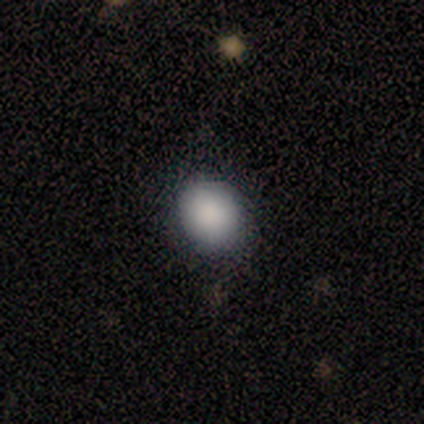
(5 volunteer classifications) Q: Smooth or featured?
A: smooth (100%)
Q: How rounded?
A: round (60%); runner-up: in between (40%)
Q: Merging?
A: none (60%); runner-up: minor disturbance (40%)